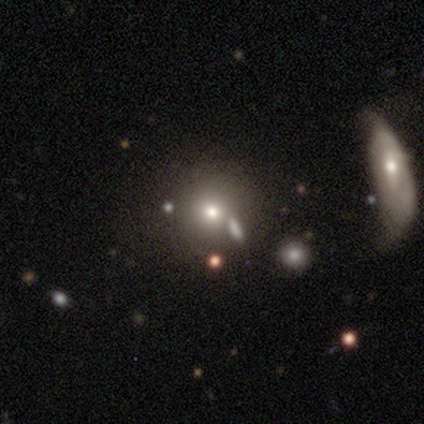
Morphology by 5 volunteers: type=star or artifact (60%).